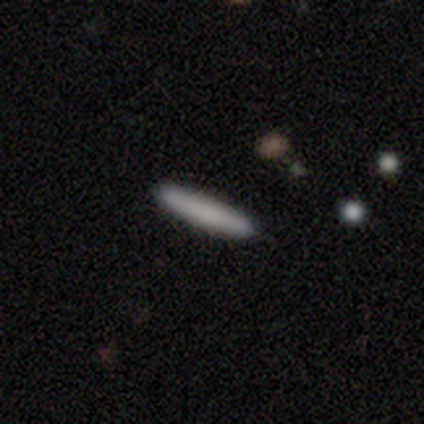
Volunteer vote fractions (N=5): Morphology: type=smooth (80%); roundness=cigar-shaped (75%); merging=none (100%).